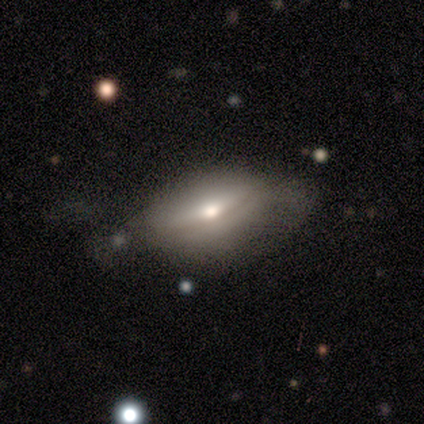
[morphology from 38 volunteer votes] Q: Smooth or featured?
A: smooth (50%); runner-up: featured or disk (45%)
Q: How rounded?
A: in between (79%); runner-up: cigar-shaped (16%)
Q: Merging?
A: none (44%); runner-up: minor disturbance (33%)